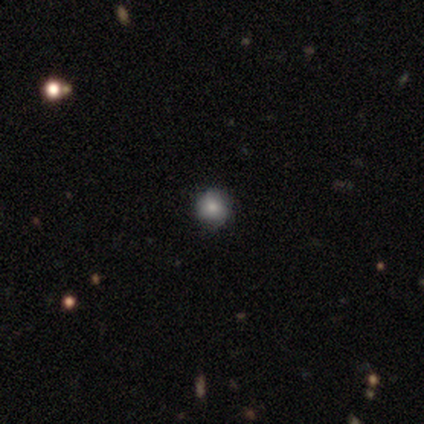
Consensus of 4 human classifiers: This appears to be a smooth galaxy with no disk features (75%) that is round (67%). Merging: none (67%).